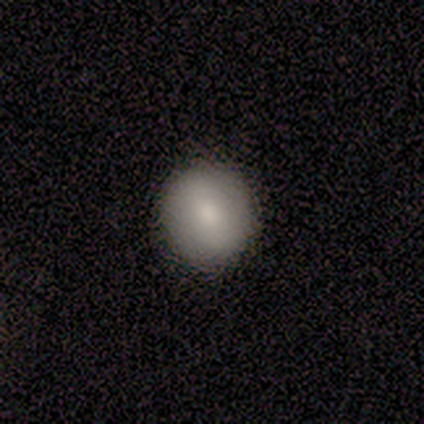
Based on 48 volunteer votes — A smooth galaxy with no disk features (83%) that is round (92%).

Vote fractions:
- Smooth or featured? smooth: 83% / featured or disk: 17% / star or artifact: 0%
- How rounded? round: 92% / in between: 5% / cigar-shaped: 2%
- Merging? none: 94% / minor disturbance: 4% / merger: 2% / major disturbance: 0%